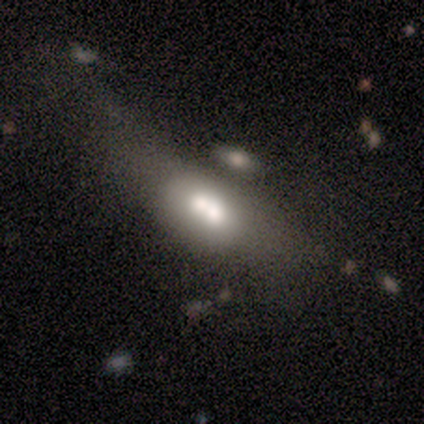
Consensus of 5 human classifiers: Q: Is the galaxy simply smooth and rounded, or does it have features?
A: smooth — 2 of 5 (40%, tied with featured or disk).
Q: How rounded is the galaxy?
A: in between — 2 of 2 (100%).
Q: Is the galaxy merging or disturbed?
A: minor disturbance — 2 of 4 (50%, tied with merger).